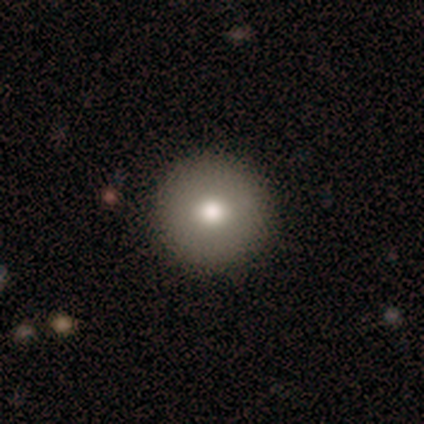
Smooth or featured?
  - smooth: 60% *
  - featured or disk: 40%
  - star or artifact: 0%
How rounded?
  - round: 100% *
  - in between: 0%
  - cigar-shaped: 0%
Merging?
  - none: 100% *
  - minor disturbance: 0%
  - major disturbance: 0%
  - merger: 0%